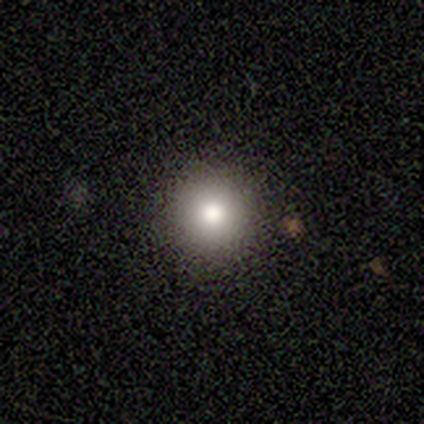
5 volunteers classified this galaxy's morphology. smooth-or-featured: smooth: 80% | featured or disk: 20% | star or artifact: 0%
  how-rounded: round: 100% | in between: 0% | cigar-shaped: 0%
  merging: none: 80% | minor disturbance: 20% | major disturbance: 0% | merger: 0%